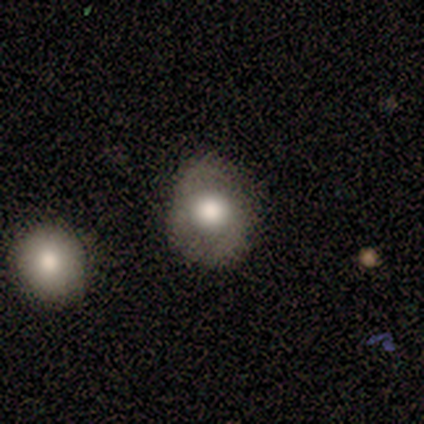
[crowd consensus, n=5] Smooth or featured?
  - featured or disk: 60% *
  - smooth: 40%
  - star or artifact: 0%
Edge-on disk?
  - no: 100% *
  - yes: 0%
Bar?
  - no: 67% *
  - weak: 33%
  - strong: 0%
Spiral arms?
  - yes: 67% *
  - no: 33%
Spiral winding?
  - medium: 100% *
  - tight: 0%
  - loose: 0%
Spiral arm count?
  - 2: 100% *
  - 1: 0%
  - 3: 0%
  - 4: 0%
  - more than 4: 0%
  - can't tell: 0%
Bulge size?
  - large: 67% *
  - moderate: 33%
  - dominant: 0%
  - small: 0%
  - none: 0%
Merging?
  - none: 60% *
  - minor disturbance: 20%
  - major disturbance: 20%
  - merger: 0%